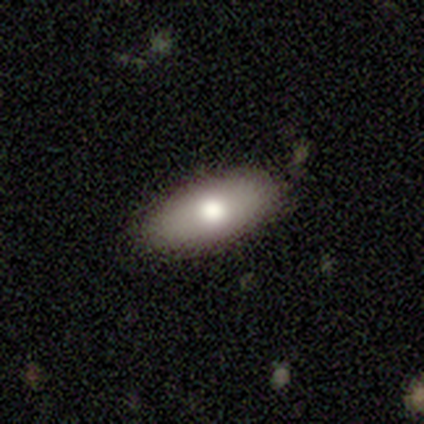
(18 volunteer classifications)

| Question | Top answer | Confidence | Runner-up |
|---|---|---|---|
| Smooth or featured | smooth | 78% | featured or disk (22%) |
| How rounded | in between | 86% | cigar-shaped (14%) |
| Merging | none | 83% | minor disturbance (17%) |